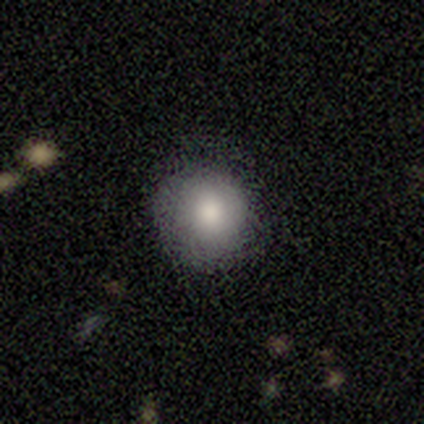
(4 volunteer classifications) Smooth or featured? 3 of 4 (75%) said smooth. How rounded? 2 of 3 (67%) said round. Merging? 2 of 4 (50%) said none.